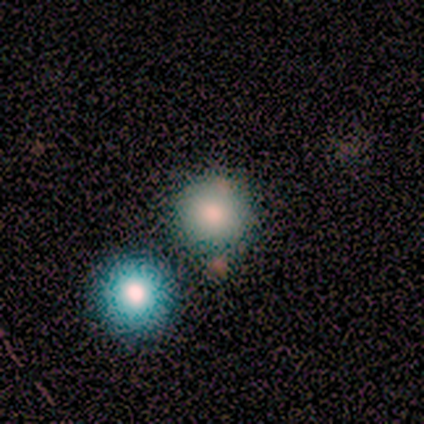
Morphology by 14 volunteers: Smooth or featured? smooth (93%)
How rounded? round (85%)
Merging? none (71%)